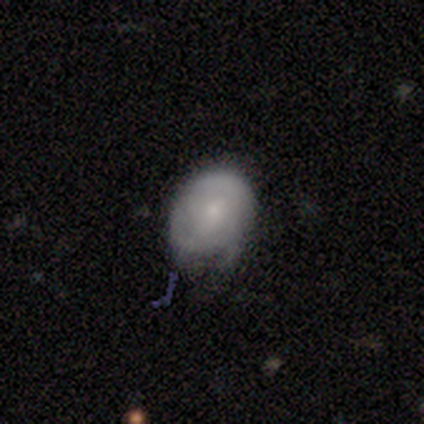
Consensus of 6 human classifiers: Overall: smooth (67%; featured or disk 33%). How rounded: in between (75%). Merging: minor disturbance (67%; none 33%).